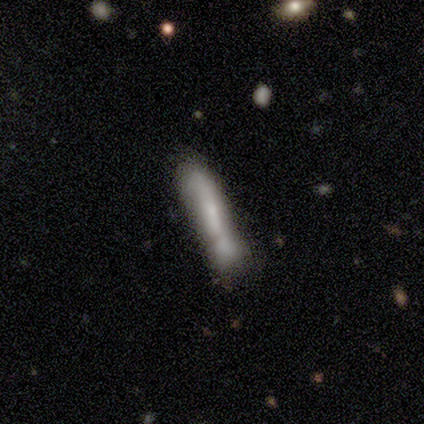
A smooth galaxy with no disk features (80%) that is cigar-shaped (75%). Merging: none (50%).